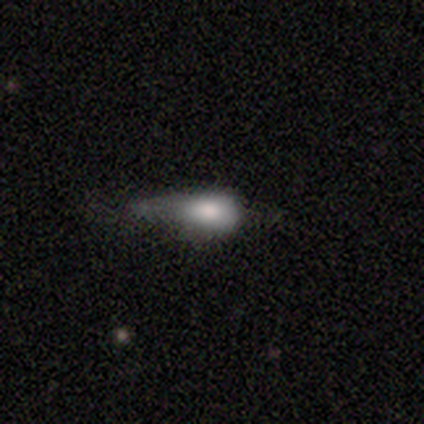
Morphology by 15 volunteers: smooth 87%, featured or disk 7%, star or artifact 7%. Down the decision tree: how rounded — in between (62%); merging — minor disturbance (64%).